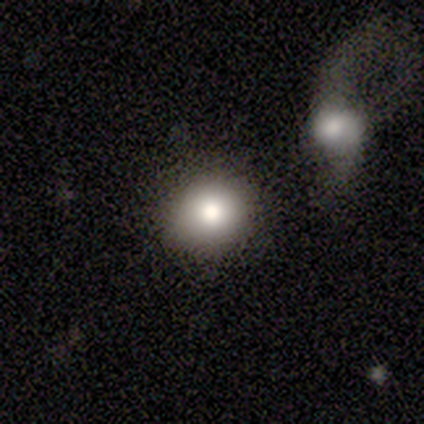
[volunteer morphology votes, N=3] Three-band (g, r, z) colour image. It shows a smooth galaxy with no disk features (67%) that is round (100%). Merging: none (100%).